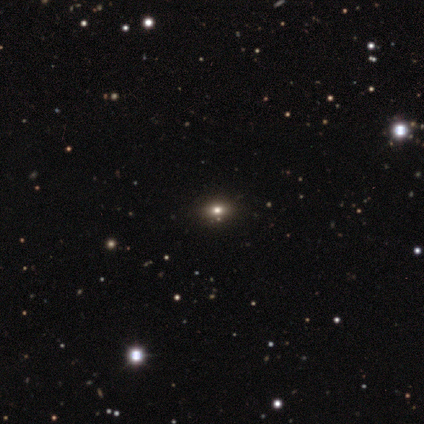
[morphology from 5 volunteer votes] A smooth galaxy with no disk features (60%) that is round (33%, tied with in between and cigar-shaped). Merging: none (100%).